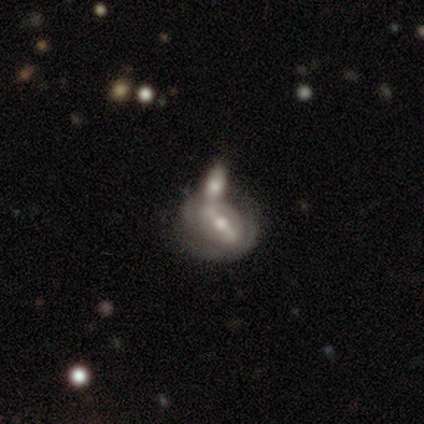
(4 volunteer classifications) Volunteers were most divided on "edge-on bulge" (2-way tie): boxy: 50%, rounded: 50%, none: 0%. More confident: smooth or featured — featured or disk (75%); merging — merger (75%); edge-on disk — yes (67%).